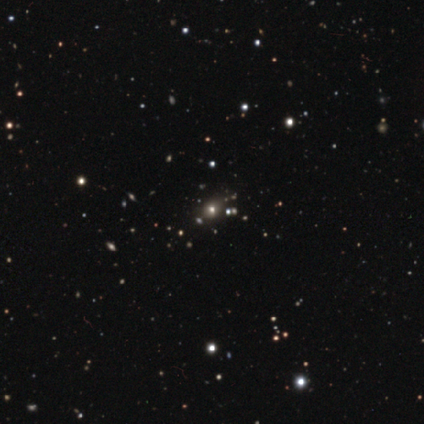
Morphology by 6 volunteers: Smooth or featured: star or artifact — 83% (smooth — 17%)